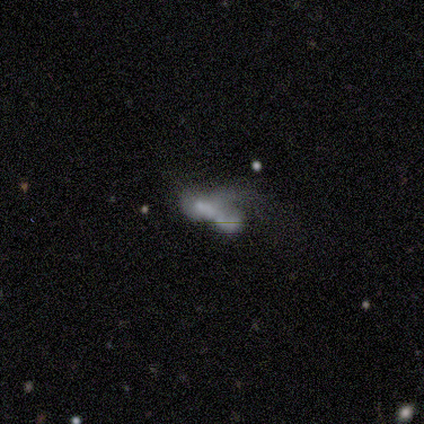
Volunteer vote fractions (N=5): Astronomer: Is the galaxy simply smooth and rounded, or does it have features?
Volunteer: smooth — 80%.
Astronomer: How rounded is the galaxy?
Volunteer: in between — 75%.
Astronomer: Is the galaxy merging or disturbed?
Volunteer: merger — 80%.